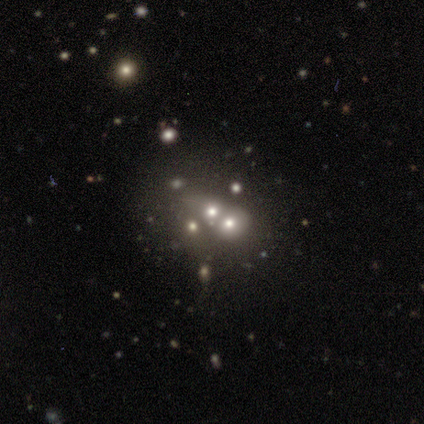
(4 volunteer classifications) Smooth or featured? star or artifact (50%)